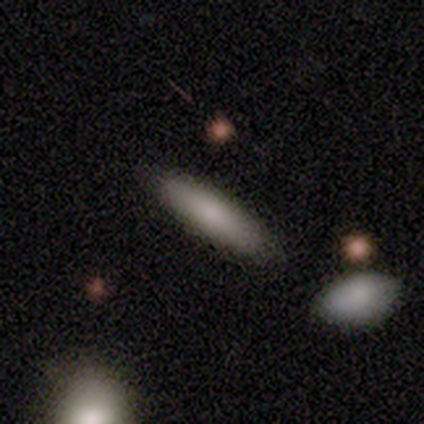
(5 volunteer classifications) Q: Smooth or featured?
A: smooth (60%); runner-up: featured or disk (40%)
Q: How rounded?
A: cigar-shaped (67%); runner-up: in between (33%)
Q: Merging?
A: none (100%)